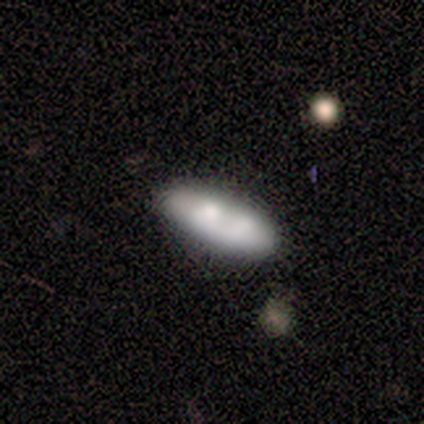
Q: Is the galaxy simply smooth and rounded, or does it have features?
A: smooth — 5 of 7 (71%).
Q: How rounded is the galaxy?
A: in between — 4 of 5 (80%).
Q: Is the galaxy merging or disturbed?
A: merger — 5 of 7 (71%).